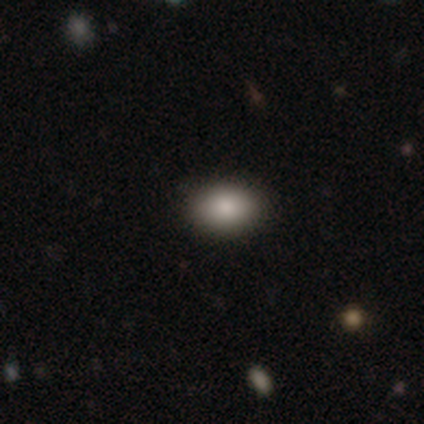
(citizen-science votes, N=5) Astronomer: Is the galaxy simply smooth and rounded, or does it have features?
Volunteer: smooth — 60% (runner-up: star or artifact, 40%).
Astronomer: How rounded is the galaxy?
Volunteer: in between — 100%.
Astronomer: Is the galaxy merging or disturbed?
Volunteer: none — 100%.